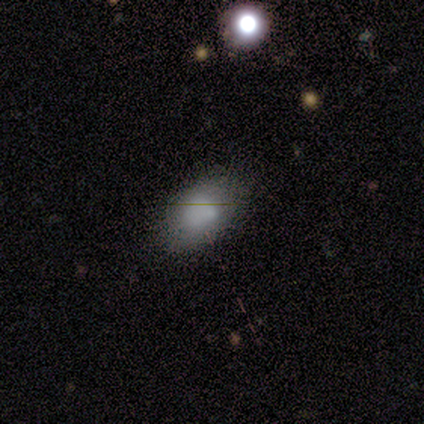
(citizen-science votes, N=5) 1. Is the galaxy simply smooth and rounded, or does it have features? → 80% smooth, 20% featured or disk, 0% star or artifact.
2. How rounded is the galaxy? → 100% in between, 0% round, 0% cigar-shaped.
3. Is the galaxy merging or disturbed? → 60% none, 40% minor disturbance, 0% major disturbance, 0% merger.